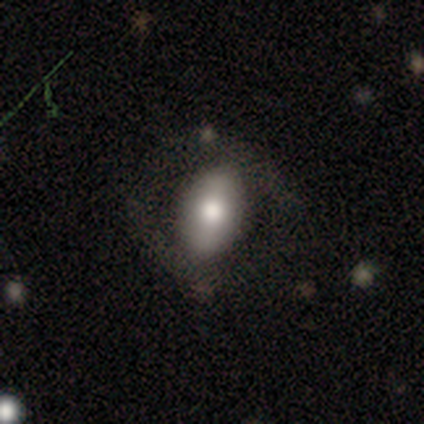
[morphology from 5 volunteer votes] smooth_or_featured: featured or disk (p=0.80) [alt: star or artifact p=0.20]
disk_edge_on: no (p=0.75) [alt: yes p=0.25]
bar: no (p=0.67) [alt: weak p=0.33]
has_spiral_arms: no (p=1.00)
bulge_size: moderate (p=0.67) [alt: large p=0.33]
merging: none (p=1.00)